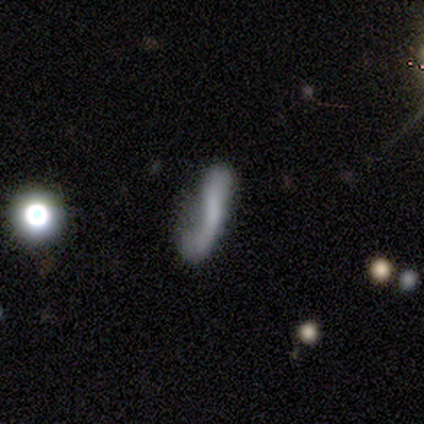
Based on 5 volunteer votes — Smooth or featured?
  - smooth: 100% *
  - featured or disk: 0%
  - star or artifact: 0%
How rounded?
  - in between: 60% *
  - cigar-shaped: 40%
  - round: 0%
Merging?
  - none: 40% * (tied)
  - minor disturbance: 40% * (tied)
  - major disturbance: 20%
  - merger: 0%